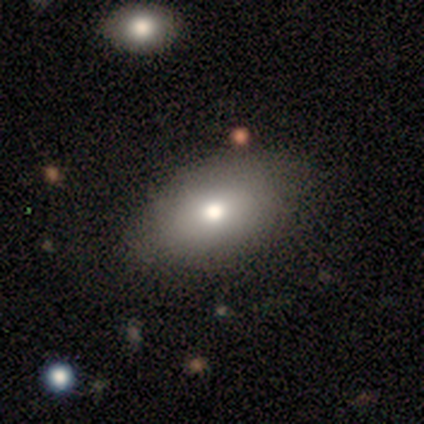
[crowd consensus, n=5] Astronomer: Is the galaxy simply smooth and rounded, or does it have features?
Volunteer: smooth — 80%.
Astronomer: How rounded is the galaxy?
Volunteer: in between — 100%.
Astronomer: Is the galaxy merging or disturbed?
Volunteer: none — 100%.